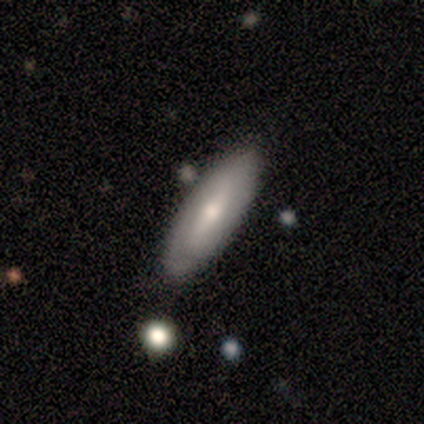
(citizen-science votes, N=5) smooth 60%, featured or disk 40%, star or artifact 0%. Down the decision tree: how rounded — in between (100%); merging — none (100%).